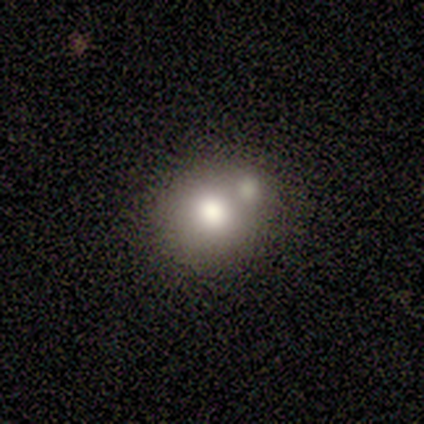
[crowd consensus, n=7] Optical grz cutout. It shows a smooth galaxy with no disk features (86%) that is in between round and cigar-shaped (67%). Merging: none (43%, tied with merger).